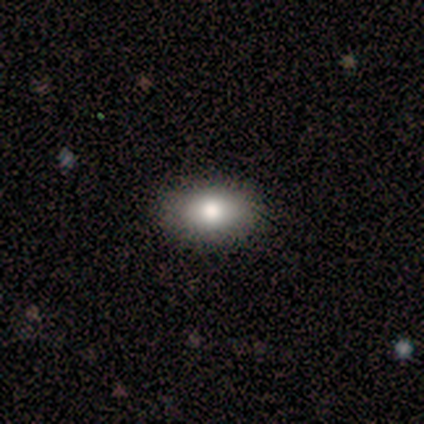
This is clearly a smooth galaxy (100%). How rounded: likely in between (60%). Merging: clearly none (80%).